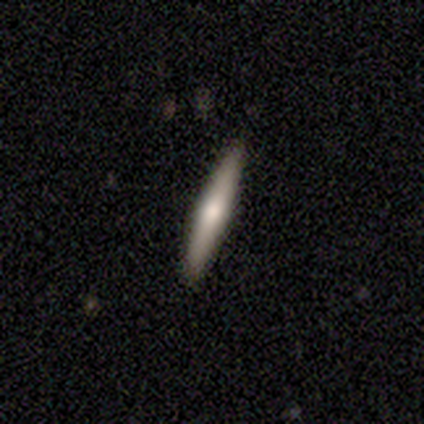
Volunteers were most divided on "smooth or featured": smooth: 60%, featured or disk: 40%, star or artifact: 0%. More confident: how rounded — cigar-shaped (100%); merging — none (100%).